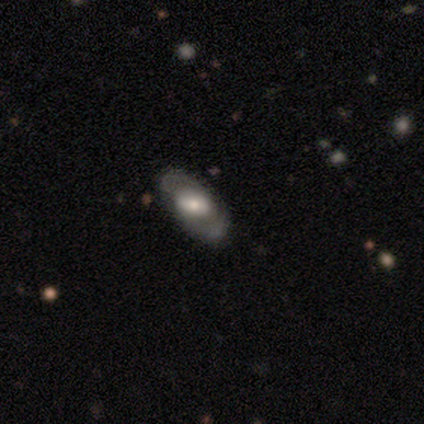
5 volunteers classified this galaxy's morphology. smooth_or_featured: featured or disk (p=0.80) [alt: smooth p=0.20]
disk_edge_on: no (p=1.00)
bar: weak (p=0.50) [tied with: no p=0.50]
has_spiral_arms: no (p=0.75) [alt: yes p=0.25]
bulge_size: moderate (p=0.50) [alt: large p=0.25]
merging: none (p=1.00)